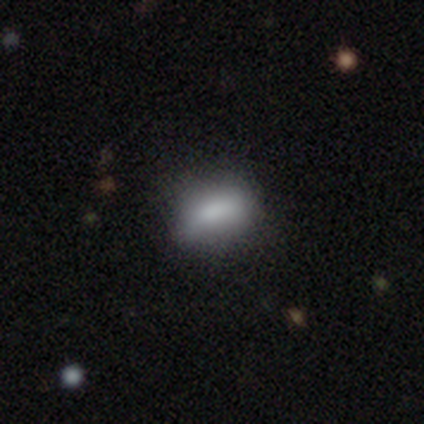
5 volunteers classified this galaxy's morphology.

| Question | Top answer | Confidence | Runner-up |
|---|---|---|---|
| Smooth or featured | smooth | 80% | featured or disk (20%) |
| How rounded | in between | 100% | — |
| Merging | none | 80% | minor disturbance (20%) |